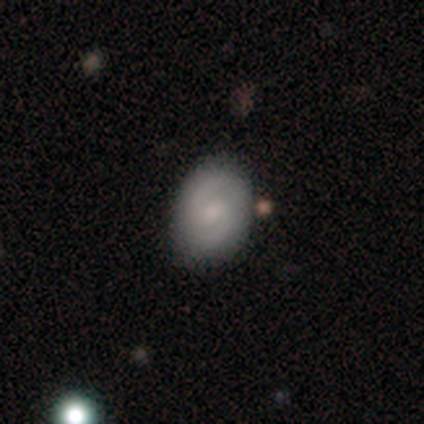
smooth_or_featured: featured or disk (p=0.61) [alt: smooth p=0.29]
disk_edge_on: no (p=1.00)
bar: weak (p=0.48) [alt: no p=0.43]
has_spiral_arms: yes (p=0.87) [alt: no p=0.13]
spiral_winding: medium (p=0.60) [alt: tight p=0.30]
spiral_arm_count: 2 (p=0.90) [alt: 3 p=0.05]
bulge_size: small (p=0.48) [alt: moderate p=0.39]
merging: none (p=0.74) [alt: minor disturbance p=0.15]